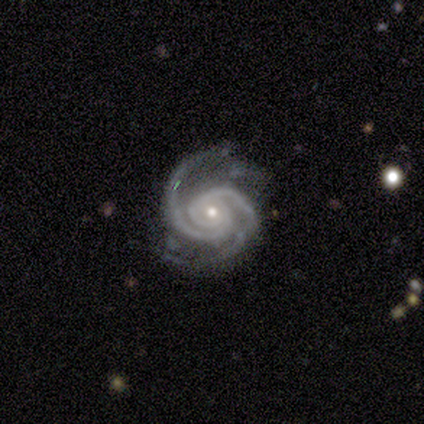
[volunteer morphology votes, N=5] This is clearly a featured or disk galaxy (100%). It is clearly not viewed edge-on (100%). Bar: clearly no (80%). Spiral arm pattern: clearly yes (100%). Spiral arm count: clearly 2 (100%). Spiral winding: clearly tight (80%). Central bulge: likely small (60%). Merging: likely none (60%).